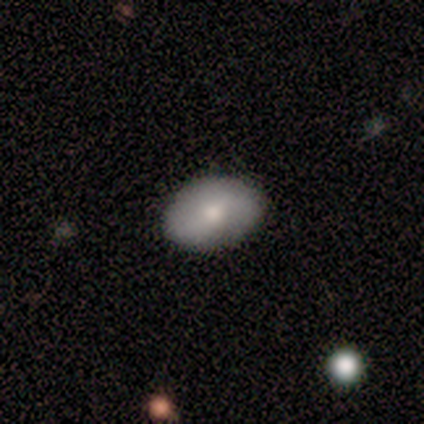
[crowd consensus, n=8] Smooth or featured? smooth (62%)
How rounded? in between (100%)
Merging? none (88%)